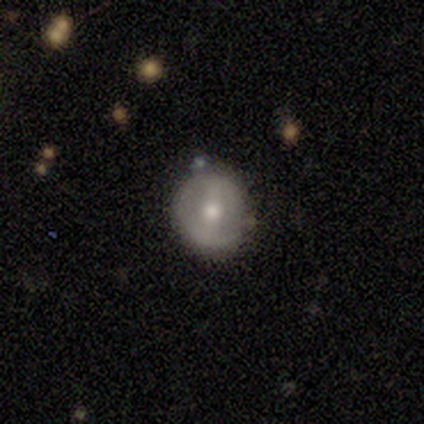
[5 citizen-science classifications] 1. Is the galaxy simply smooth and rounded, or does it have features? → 60% featured or disk, 40% smooth, 0% star or artifact.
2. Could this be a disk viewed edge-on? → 100% no, 0% yes.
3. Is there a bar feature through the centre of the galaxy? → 67% strong, 33% weak, 0% no.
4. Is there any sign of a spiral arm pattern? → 67% no, 33% yes.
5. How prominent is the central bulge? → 67% moderate, 33% small, 0% dominant, 0% large, 0% none.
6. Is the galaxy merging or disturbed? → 100% none, 0% minor disturbance, 0% major disturbance, 0% merger.